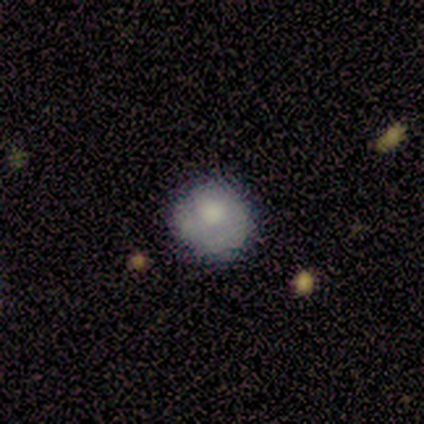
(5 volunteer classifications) smooth 60%, featured or disk 20%, star or artifact 20%. Down the decision tree: how rounded — round (100%); merging — none (50%, tied with minor disturbance).